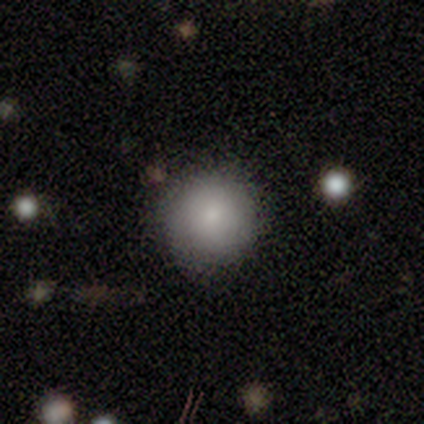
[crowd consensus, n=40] Morphology: type=smooth (72%); roundness=round (100%); merging=none (76%).